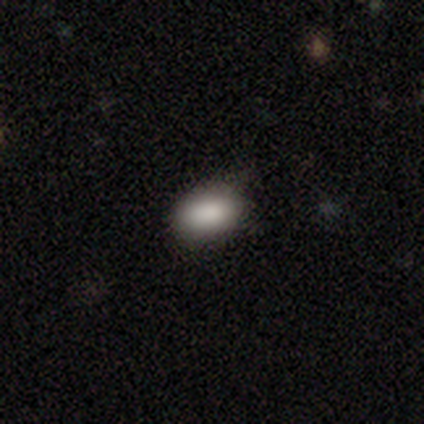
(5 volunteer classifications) A smooth galaxy with no disk features (80%) that is in between round and cigar-shaped (100%).

Vote fractions:
- Smooth or featured? smooth: 80% / featured or disk: 20% / star or artifact: 0%
- How rounded? in between: 100% / round: 0% / cigar-shaped: 0%
- Merging? none: 100% / minor disturbance: 0% / major disturbance: 0% / merger: 0%